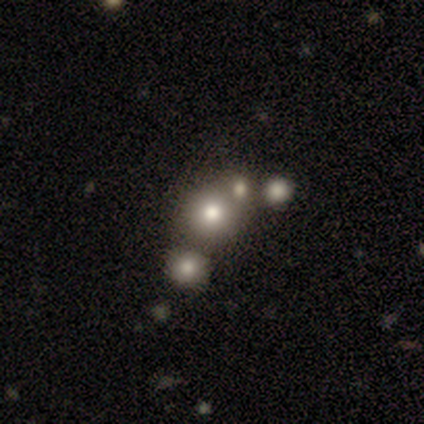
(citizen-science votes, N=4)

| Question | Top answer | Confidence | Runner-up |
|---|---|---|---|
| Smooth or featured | smooth | 50% | tied: star or artifact (50%) |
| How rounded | round | 100% | — |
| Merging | none | 50% | tied: merger (50%) |